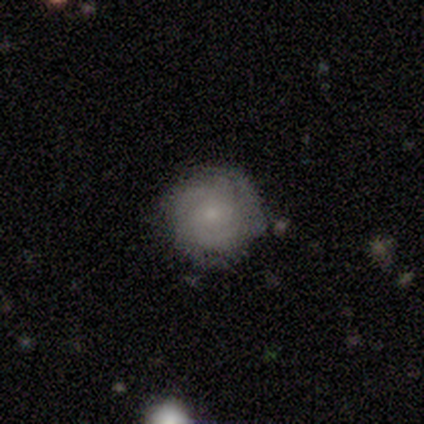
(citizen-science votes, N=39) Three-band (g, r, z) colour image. It shows a featured or disk galaxy (69%) with no bar (81%), 3 (25%, tied with 4) tight (83%) spiral arms (89%) and a small central bulge (70%). Merging: none (86%).